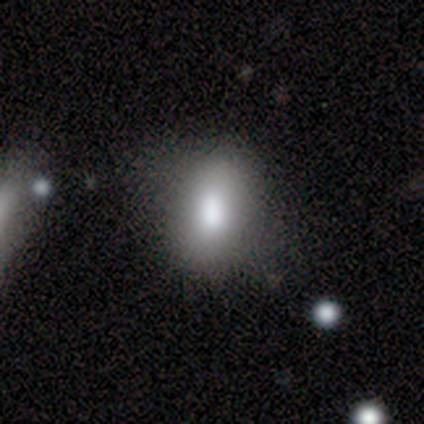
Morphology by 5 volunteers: Smooth or featured?
  - smooth: 60% *
  - featured or disk: 40%
  - star or artifact: 0%
How rounded?
  - in between: 67% *
  - round: 33%
  - cigar-shaped: 0%
Merging?
  - none: 60% *
  - minor disturbance: 40%
  - major disturbance: 0%
  - merger: 0%